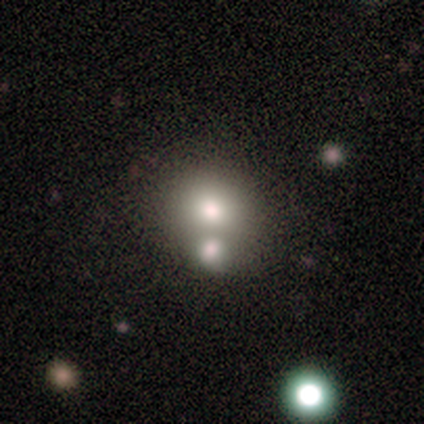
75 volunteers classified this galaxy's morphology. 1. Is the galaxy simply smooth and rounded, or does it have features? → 77% smooth, 12% star or artifact, 11% featured or disk.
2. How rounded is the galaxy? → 69% round, 31% in between, 0% cigar-shaped.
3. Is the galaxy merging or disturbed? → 41% merger, 30% none, 12% minor disturbance, 0% major disturbance.